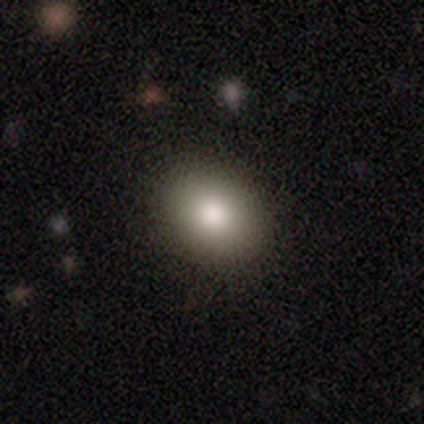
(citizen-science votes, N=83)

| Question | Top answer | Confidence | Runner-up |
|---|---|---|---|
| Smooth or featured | smooth | 76% | featured or disk (13%) |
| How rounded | in between | 71% | round (29%) |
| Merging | none | 88% | minor disturbance (8%) |